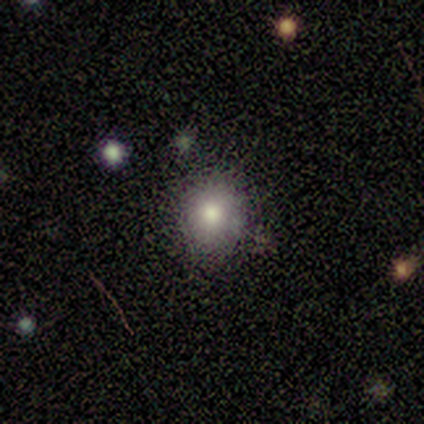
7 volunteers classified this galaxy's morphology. Q: Smooth or featured?
A: smooth (86%); runner-up: featured or disk (14%)
Q: How rounded?
A: round (83%); runner-up: in between (17%)
Q: Merging?
A: none (100%)